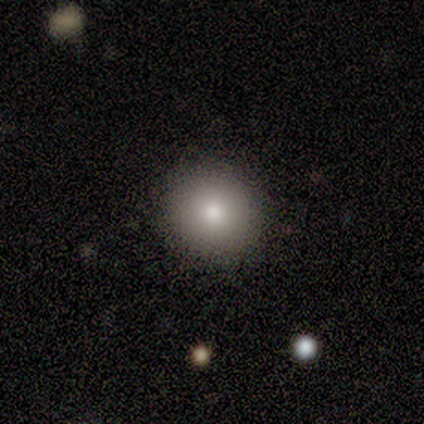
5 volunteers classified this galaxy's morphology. This appears to be a smooth galaxy with no disk features (100%) that is round (80%). Merging: none (60%).